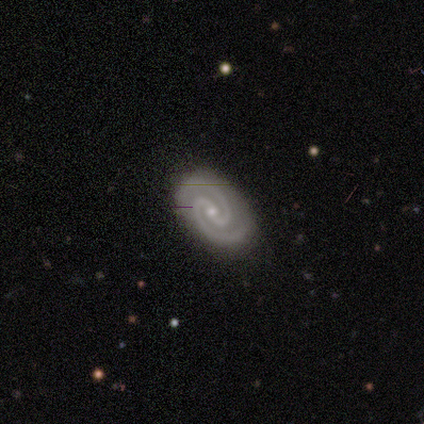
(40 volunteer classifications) Q: Smooth or featured?
A: featured or disk (98%); runner-up: star or artifact (2%)
Q: Edge-on disk?
A: no (92%); runner-up: yes (8%)
Q: Bar?
A: no (39%); runner-up: strong (36%)
Q: Spiral arms?
A: yes (100%)
Q: Spiral winding?
A: tight (61%); runner-up: medium (39%)
Q: Spiral arm count?
A: 2 (100%)
Q: Bulge size?
A: small (69%); runner-up: moderate (28%)
Q: Merging?
A: none (90%); runner-up: minor disturbance (5%)